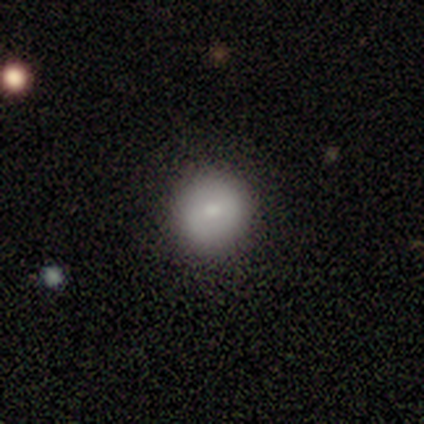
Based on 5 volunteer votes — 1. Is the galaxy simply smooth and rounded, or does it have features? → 100% smooth, 0% featured or disk, 0% star or artifact.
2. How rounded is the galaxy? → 100% round, 0% in between, 0% cigar-shaped.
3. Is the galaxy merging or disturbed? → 100% none, 0% minor disturbance, 0% major disturbance, 0% merger.